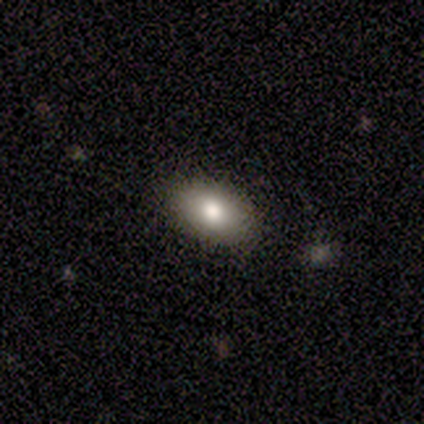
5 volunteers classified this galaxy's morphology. Volunteers were most divided on "smooth or featured": smooth: 80%, featured or disk: 20%, star or artifact: 0%. More confident: how rounded — in between (100%); merging — none (100%).